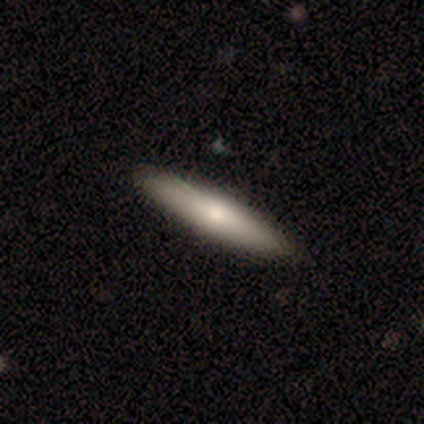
smooth_or_featured: smooth (p=0.50) [alt: featured or disk p=0.25]
how_rounded: cigar-shaped (p=1.00)
merging: none (p=1.00)